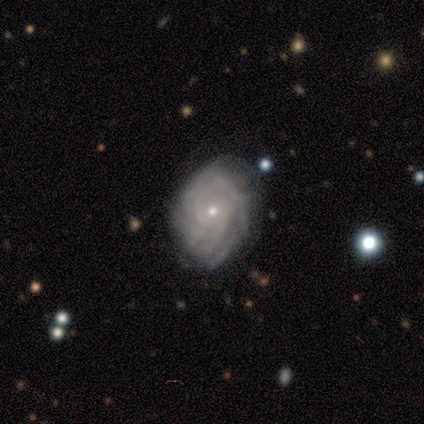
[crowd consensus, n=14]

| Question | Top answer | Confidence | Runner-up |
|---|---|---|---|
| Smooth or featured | featured or disk | 86% | smooth (7%) |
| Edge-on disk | no | 100% | — |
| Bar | no | 75% | weak (17%) |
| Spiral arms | yes | 92% | no (8%) |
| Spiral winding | tight | 91% | medium (9%) |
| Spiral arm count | can't tell | 64% | 2 (9%) |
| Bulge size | small | 75% | moderate (25%) |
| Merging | none | 85% | minor disturbance (8%) |